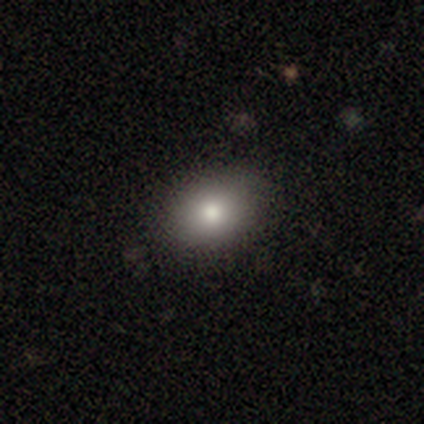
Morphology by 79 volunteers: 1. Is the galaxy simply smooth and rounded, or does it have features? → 80% smooth, 13% star or artifact, 8% featured or disk.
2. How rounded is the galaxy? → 63% in between, 37% round, 0% cigar-shaped.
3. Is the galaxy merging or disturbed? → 43% none, 7% minor disturbance, 4% merger, 0% major disturbance.